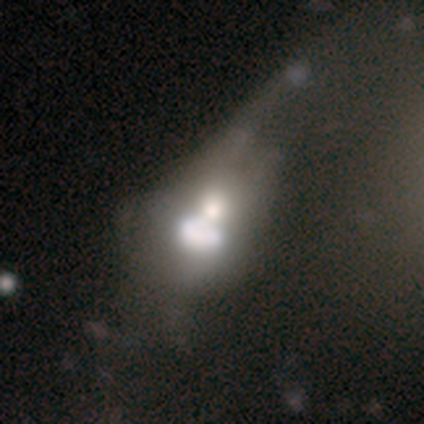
Smooth or featured: featured or disk — 60% (smooth — 40%)
Edge-on disk: no — 67% (yes — 33%)
Bar: no — 100%
Spiral arms: no — 100%
Bulge size: dominant — 50% (tied with moderate — 50%)
Merging: major disturbance — 60% (merger — 40%)